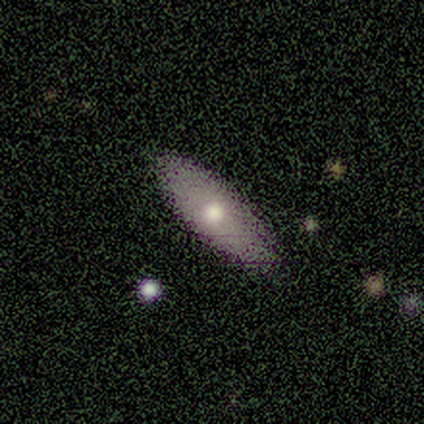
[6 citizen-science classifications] smooth-or-featured: smooth: 67% | featured or disk: 33% | star or artifact: 0%
  how-rounded: in between: 50% (tied) | cigar-shaped: 50% (tied) | round: 0%
  merging: none: 83% | minor disturbance: 17% | major disturbance: 0% | merger: 0%